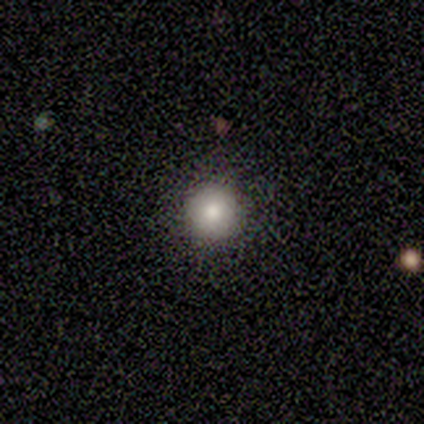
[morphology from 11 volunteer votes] Smooth or featured? 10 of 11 (91%) said smooth. How rounded? 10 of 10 (100%) said round. Merging? 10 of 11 (91%) said none.